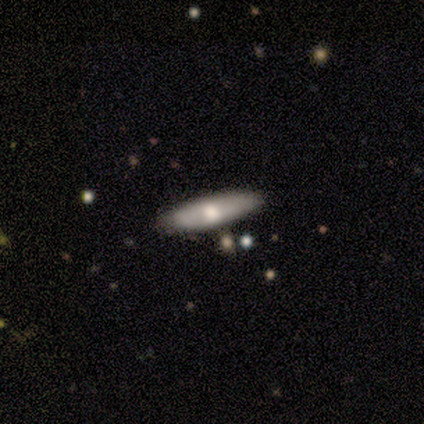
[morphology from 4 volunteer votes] This is possibly a smooth galaxy (50%). How rounded: clearly cigar-shaped (100%). Merging: clearly none (100%).